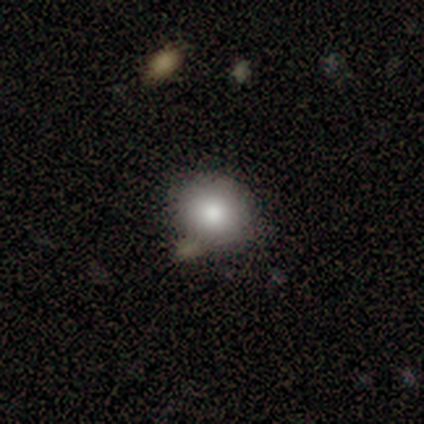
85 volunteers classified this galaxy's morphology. Smooth or featured? smooth (82%)
How rounded? round (74%)
Merging? none (73%)